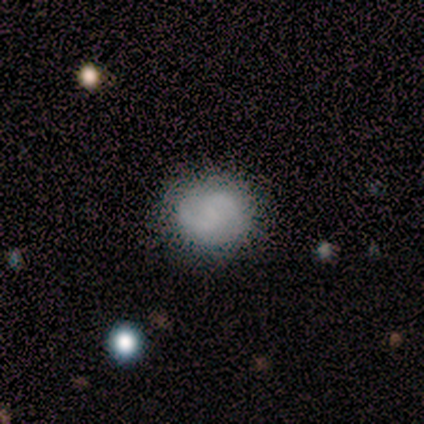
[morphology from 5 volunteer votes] Smooth or featured? smooth (100%)
How rounded? round (80%)
Merging? none (100%)